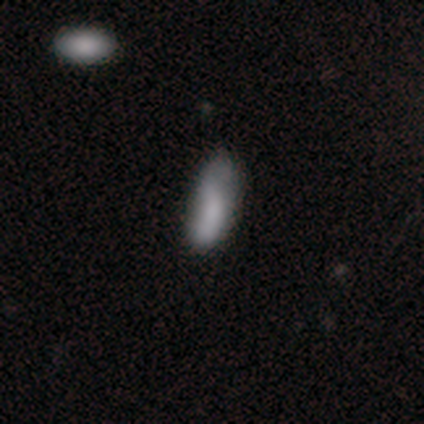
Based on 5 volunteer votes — Volunteers were most divided on "how rounded" (2-way tie): in between: 50%, cigar-shaped: 50%, round: 0%. More confident: smooth or featured — smooth (80%); merging — minor disturbance (75%).